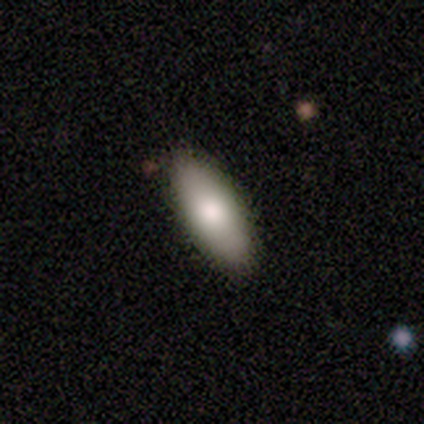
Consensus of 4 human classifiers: Morphology: type=smooth (75%); roundness=in between (100%); merging=none (75%).